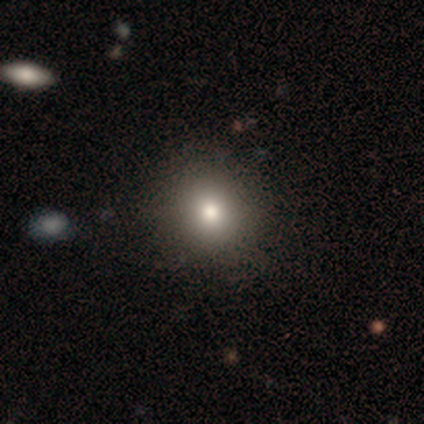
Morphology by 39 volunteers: Q: Smooth or featured?
A: smooth (74%); runner-up: star or artifact (18%)
Q: How rounded?
A: round (90%); runner-up: in between (10%)
Q: Merging?
A: none (56%); runner-up: minor disturbance (6%)